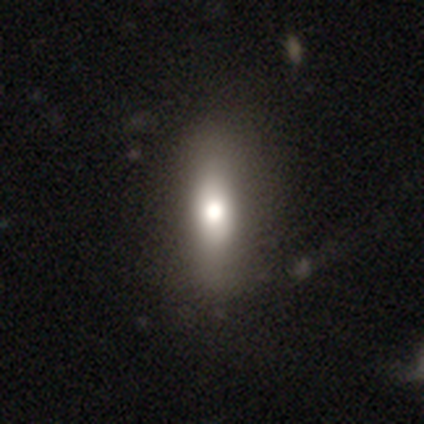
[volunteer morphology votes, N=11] smooth_or_featured: smooth (p=0.82) [alt: featured or disk p=0.18]
how_rounded: in between (p=0.67) [alt: cigar-shaped p=0.22]
merging: none (p=0.64) [alt: minor disturbance p=0.27]